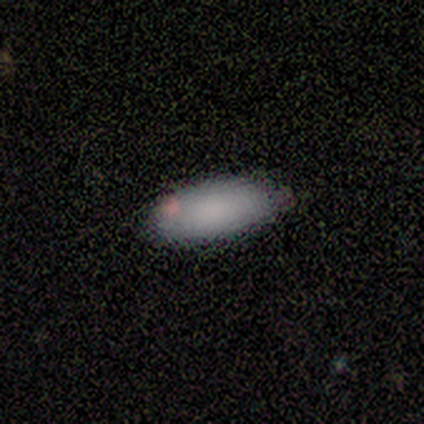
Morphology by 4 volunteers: smooth 75%, featured or disk 25%, star or artifact 0%. Down the decision tree: how rounded — in between (100%); merging — none (75%).